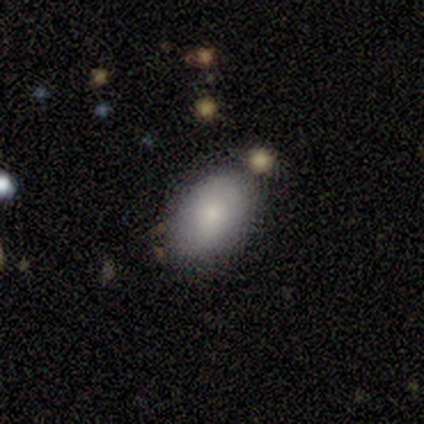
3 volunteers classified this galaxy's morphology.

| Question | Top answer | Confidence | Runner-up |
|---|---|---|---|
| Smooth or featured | smooth | 100% | — |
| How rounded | in between | 100% | — |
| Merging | minor disturbance | 100% | — |